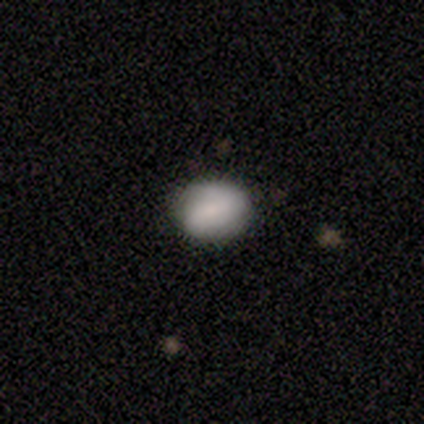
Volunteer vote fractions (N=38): smooth_or_featured: smooth (p=0.68) [alt: featured or disk p=0.21]
how_rounded: in between (p=0.58) [alt: round p=0.42]
merging: none (p=0.79) [alt: minor disturbance p=0.18]